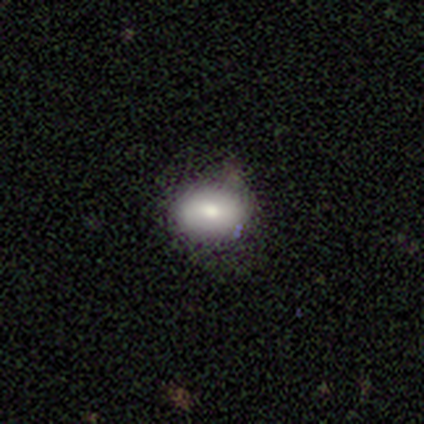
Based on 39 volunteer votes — This appears to be a smooth galaxy with no disk features (82%) that is in between round and cigar-shaped (78%). Merging: none (68%).